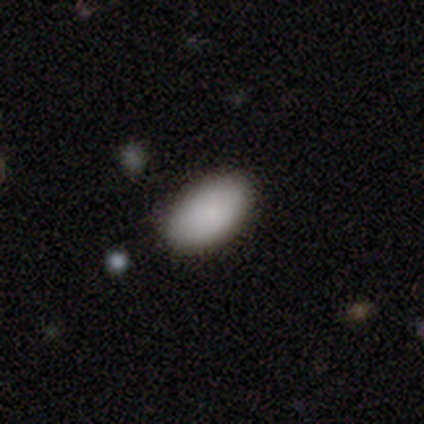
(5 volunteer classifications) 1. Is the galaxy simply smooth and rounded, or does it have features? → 80% smooth, 20% featured or disk, 0% star or artifact.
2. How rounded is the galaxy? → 100% in between, 0% round, 0% cigar-shaped.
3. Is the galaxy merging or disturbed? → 60% none, 40% minor disturbance, 0% major disturbance, 0% merger.